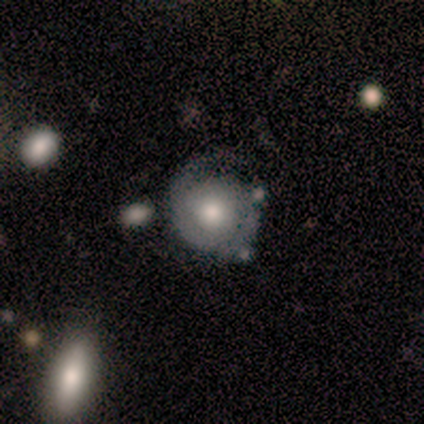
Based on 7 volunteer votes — smooth-or-featured: featured or disk: 86% | smooth: 14% | star or artifact: 0%
  disk-edge-on: no: 100% | yes: 0%
    bar: no: 100% | strong: 0% | weak: 0%
    has-spiral-arms: yes: 83% | no: 17%
      spiral-winding: medium: 60% | tight: 40% | loose: 0%
      spiral-arm-count: 2: 40% | 1: 20% | 3: 20% | can't tell: 20% | 4: 0% | more than 4: 0%
    bulge-size: large: 50% (tied) | moderate: 50% (tied) | dominant: 0% | small: 0% | none: 0%
  merging: minor disturbance: 57% | none: 29% | major disturbance: 14% | merger: 0%